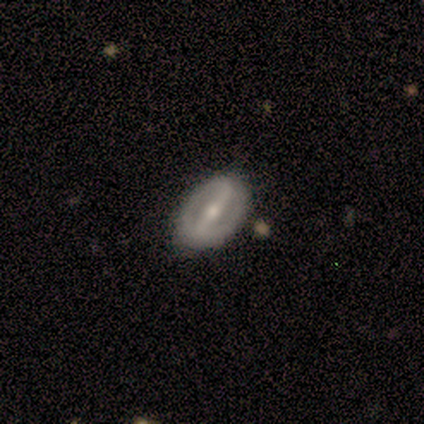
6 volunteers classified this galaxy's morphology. Q: Smooth or featured?
A: featured or disk (83%); runner-up: smooth (17%)
Q: Edge-on disk?
A: no (100%)
Q: Bar?
A: strong (80%); runner-up: weak (20%)
Q: Spiral arms?
A: no (60%); runner-up: yes (40%)
Q: Bulge size?
A: small (60%); runner-up: moderate (40%)
Q: Merging?
A: none (100%)